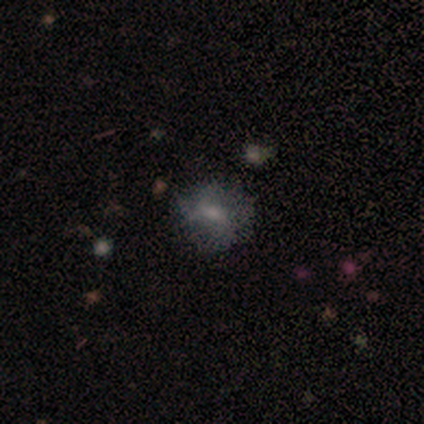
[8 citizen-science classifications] smooth_or_featured: smooth (p=0.62) [alt: featured or disk p=0.25]
how_rounded: in between (p=0.60) [alt: round p=0.20]
merging: none (p=0.43) [alt: minor disturbance p=0.29]